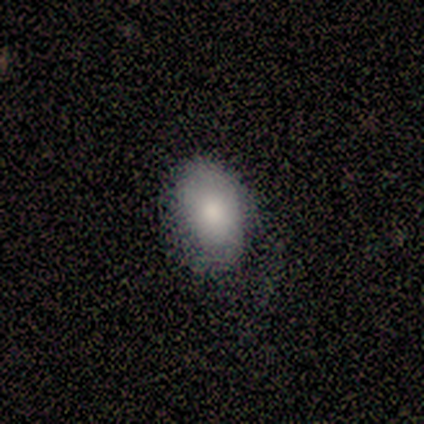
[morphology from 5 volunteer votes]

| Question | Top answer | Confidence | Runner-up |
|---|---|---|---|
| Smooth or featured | smooth | 60% | featured or disk (20%) |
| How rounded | in between | 67% | round (33%) |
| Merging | none | 75% | minor disturbance (25%) |